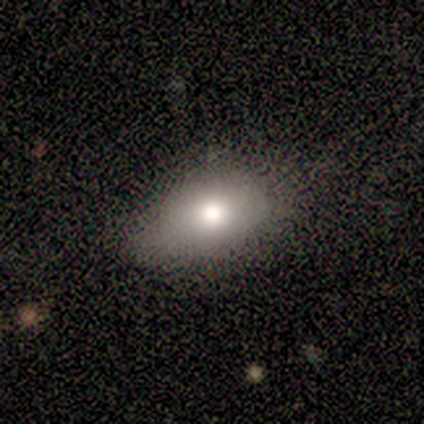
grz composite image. It shows a smooth galaxy with no disk features (100%) that is in between round and cigar-shaped (100%). Merging: none (60%).